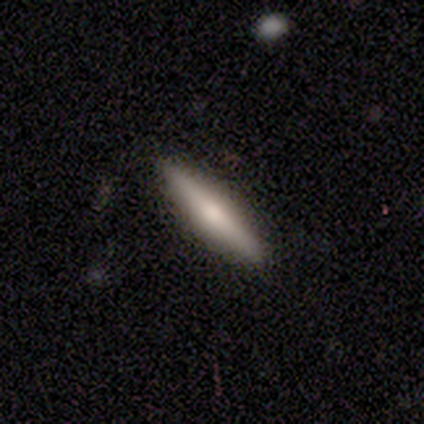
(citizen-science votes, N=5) This appears to be a smooth galaxy with no disk features (80%) that is cigar-shaped (100%). Merging: none (100%).